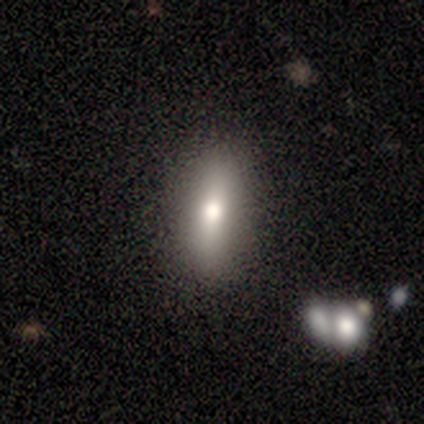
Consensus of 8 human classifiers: This appears to be a smooth galaxy with no disk features (62%) that is in between round and cigar-shaped (100%). Merging: none (43%).